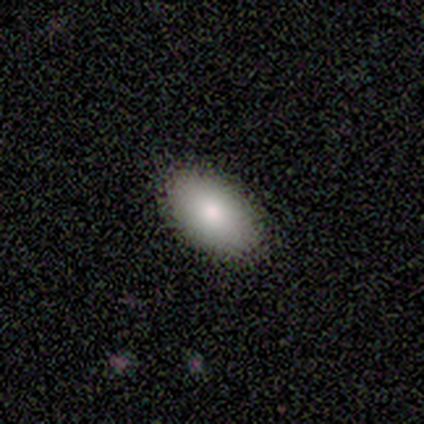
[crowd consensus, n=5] Q: Smooth or featured?
A: smooth (80%); runner-up: star or artifact (20%)
Q: How rounded?
A: in between (100%)
Q: Merging?
A: none (75%); runner-up: minor disturbance (25%)